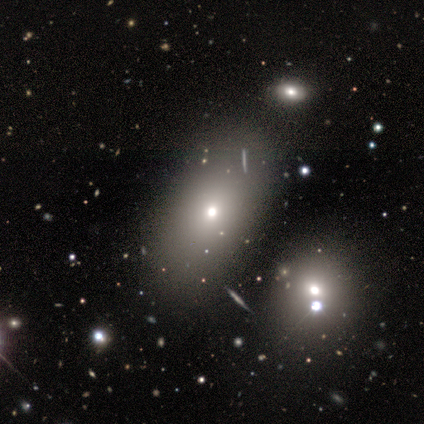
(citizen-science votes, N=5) Q: Smooth or featured?
A: smooth (40%); tied with: star or artifact (40%)
Q: How rounded?
A: in between (100%)
Q: Merging?
A: none (100%)